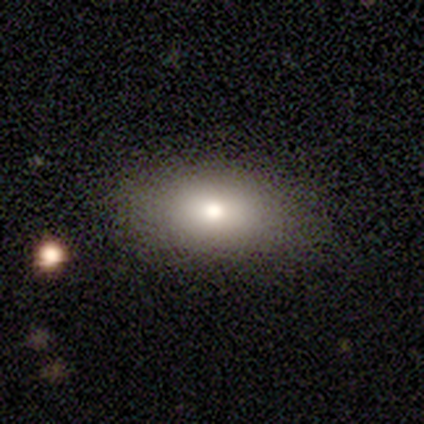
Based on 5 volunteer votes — Smooth or featured?
  - smooth: 80% *
  - featured or disk: 20%
  - star or artifact: 0%
How rounded?
  - in between: 75% *
  - round: 25%
  - cigar-shaped: 0%
Merging?
  - none: 80% *
  - minor disturbance: 20%
  - major disturbance: 0%
  - merger: 0%